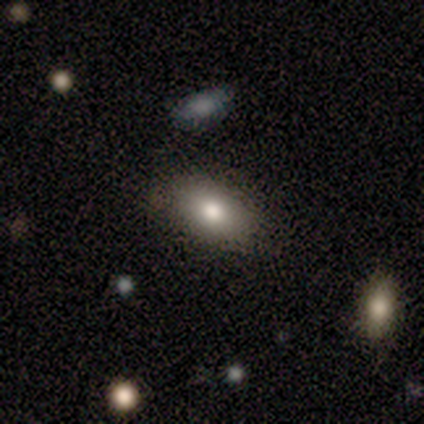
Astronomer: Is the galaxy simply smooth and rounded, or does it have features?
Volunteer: smooth — 80%.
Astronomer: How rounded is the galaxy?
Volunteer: in between — 100%.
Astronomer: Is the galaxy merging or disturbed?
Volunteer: none — 100%.